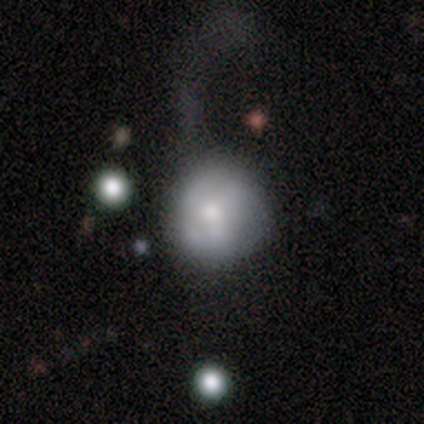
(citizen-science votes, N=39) A smooth galaxy with no disk features (56%) that is round (91%). Merging: major disturbance (53%).